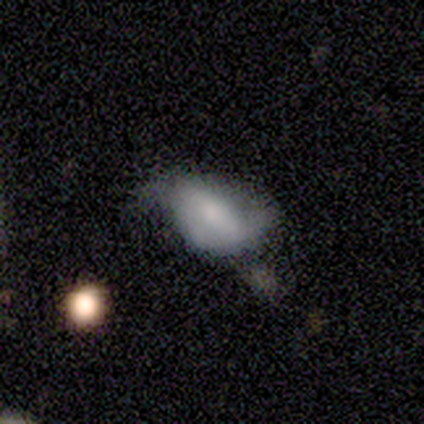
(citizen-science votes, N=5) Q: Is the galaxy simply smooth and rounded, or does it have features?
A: smooth — 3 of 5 (60%).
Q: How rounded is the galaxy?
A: in between — 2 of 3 (67%).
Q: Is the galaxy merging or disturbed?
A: none — 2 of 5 (40%, tied with minor disturbance).